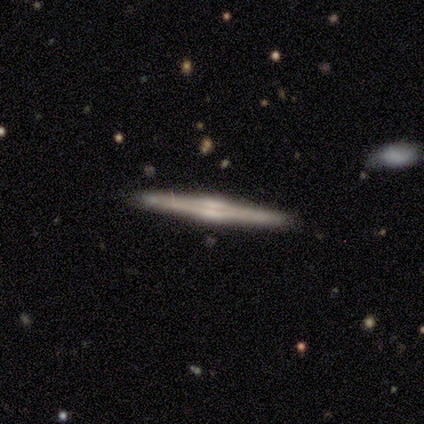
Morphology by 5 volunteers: featured or disk 100%, smooth 0%, star or artifact 0%. Down the decision tree: edge-on disk — yes (100%); edge-on bulge — rounded (60%); merging — none (100%).